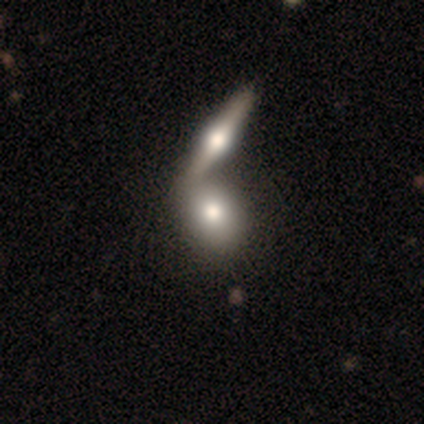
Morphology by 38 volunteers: smooth_or_featured: smooth (p=0.61) [alt: featured or disk p=0.39]
how_rounded: in between (p=0.61) [alt: round p=0.30]
merging: merger (p=0.71) [alt: none p=0.21]